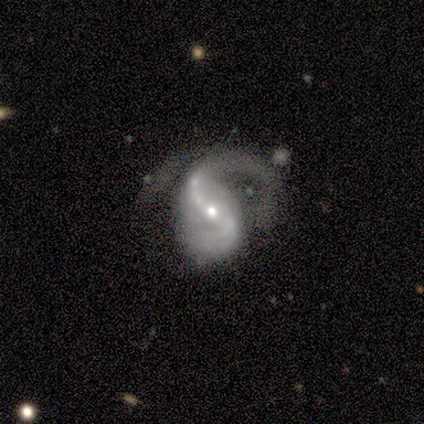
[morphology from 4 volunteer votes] Smooth or featured? featured or disk (100%)
Edge-on disk? no (100%)
Bar? strong (50%, tied with weak)
Spiral arms? yes (100%)
Spiral winding? medium (50%, tied with loose)
Spiral arm count? 1 (50%, tied with 2)
Bulge size? small (75%)
Merging? none (50%, tied with minor disturbance)